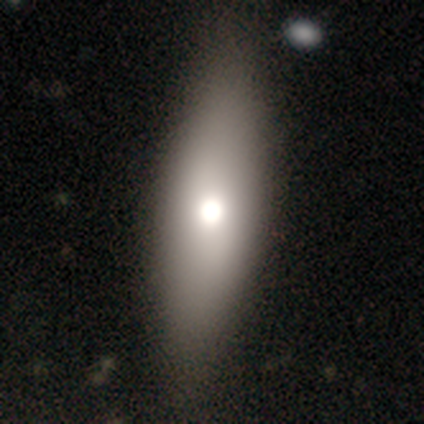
A smooth galaxy with no disk features (72%) that is in between round and cigar-shaped (82%). Merging: none (69%).